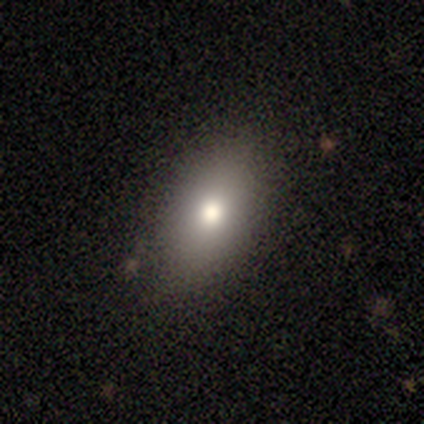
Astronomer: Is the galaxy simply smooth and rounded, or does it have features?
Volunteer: smooth — 79%.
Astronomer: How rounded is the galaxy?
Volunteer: in between — 90%.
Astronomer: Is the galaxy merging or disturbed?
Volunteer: none — 84%.